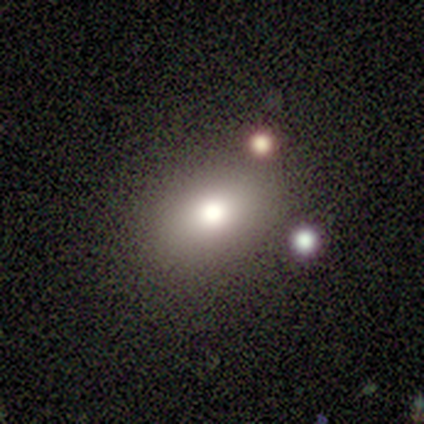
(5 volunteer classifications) Smooth or featured? smooth (100%)
How rounded? in between (80%)
Merging? none (80%)